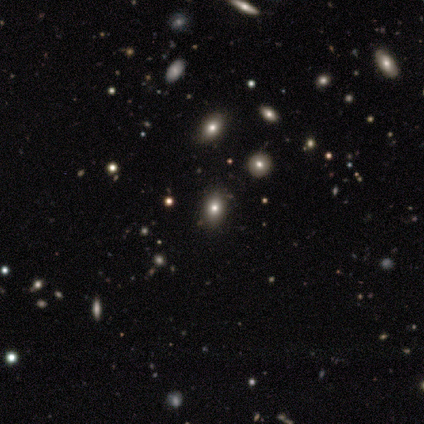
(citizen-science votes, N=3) smooth-or-featured: smooth: 33% (tied) | featured or disk: 33% (tied) | star or artifact: 33% (tied)
  how-rounded: in between: 100% | round: 0% | cigar-shaped: 0%
  merging: none: 100% | minor disturbance: 0% | major disturbance: 0% | merger: 0%